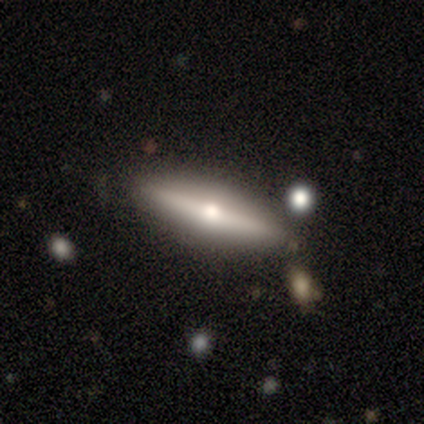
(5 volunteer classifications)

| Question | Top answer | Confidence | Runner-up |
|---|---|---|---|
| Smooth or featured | smooth | 80% | featured or disk (20%) |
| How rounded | in between | 50% | tied: cigar-shaped (50%) |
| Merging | none | 100% | — |